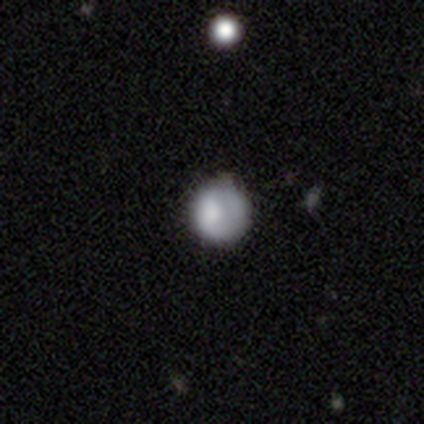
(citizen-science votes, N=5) A smooth galaxy with no disk features (60%) that is round (100%). Merging: none (100%).